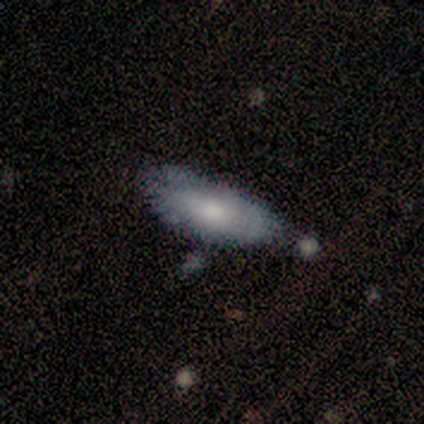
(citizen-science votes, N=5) Morphology: type=smooth (100%); roundness=in between (100%); merging=none (80%).